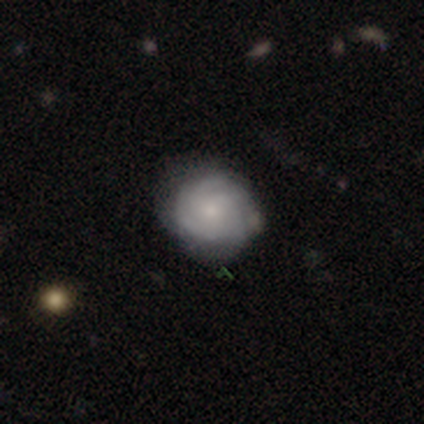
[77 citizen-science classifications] Morphology: type=featured or disk (62%); edge-on=no (100%); bar=no (98%); spiral arms=yes (96%); winding=tight (78%); arm count=can't tell (43%); bulge=small (65%); merging=none (38%).